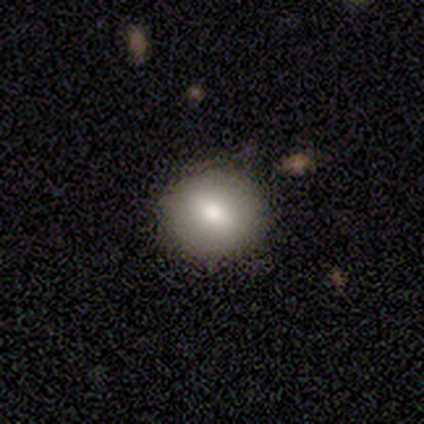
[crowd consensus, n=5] Smooth or featured? smooth (100%)
How rounded? round (100%)
Merging? none (100%)